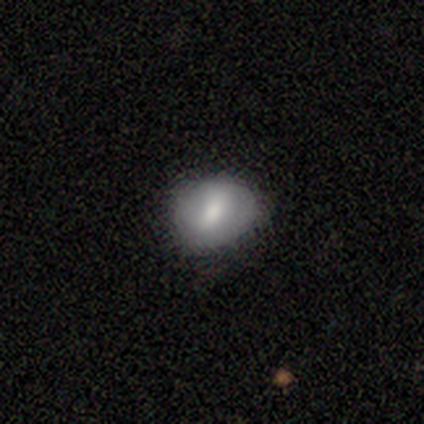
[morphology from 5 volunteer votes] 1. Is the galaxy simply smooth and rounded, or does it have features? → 60% featured or disk, 40% smooth, 0% star or artifact.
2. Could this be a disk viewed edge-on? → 100% no, 0% yes.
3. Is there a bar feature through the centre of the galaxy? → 67% weak, 33% strong, 0% no.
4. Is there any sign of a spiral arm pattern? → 67% no, 33% yes.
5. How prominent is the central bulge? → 67% moderate, 33% small, 0% dominant, 0% large, 0% none.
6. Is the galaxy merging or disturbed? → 60% none, 40% minor disturbance, 0% major disturbance, 0% merger.